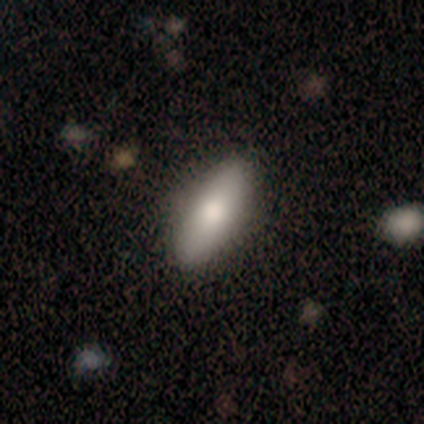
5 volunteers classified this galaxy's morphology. A smooth galaxy with no disk features (100%) that is in between round and cigar-shaped (80%). Merging: none (100%).